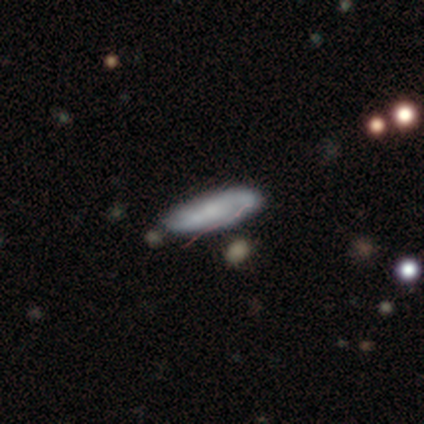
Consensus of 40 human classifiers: smooth_or_featured: featured or disk (p=0.57) [alt: smooth p=0.42]
disk_edge_on: no (p=0.78) [alt: yes p=0.22]
bar: no (p=0.39) [alt: weak p=0.33]
has_spiral_arms: yes (p=0.72) [alt: no p=0.28]
spiral_winding: loose (p=0.62) [alt: medium p=0.23]
spiral_arm_count: 2 (p=0.85) [alt: can't tell p=0.15]
bulge_size: small (p=0.50) [alt: none p=0.22]
merging: none (p=0.47) [alt: minor disturbance p=0.15]